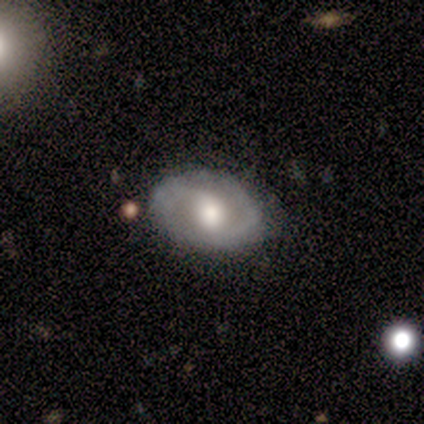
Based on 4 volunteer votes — This appears to be a featured or disk galaxy (100%) with a weak bar (50%, tied with no), 2 (67%) medium (67%) spiral arms (75%) and a moderate central bulge (75%). Merging: none (50%, tied with minor disturbance).